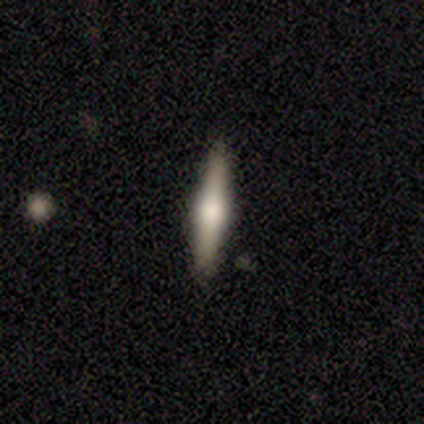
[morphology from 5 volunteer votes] Smooth or featured? smooth (60%)
How rounded? cigar-shaped (100%)
Merging? none (80%)